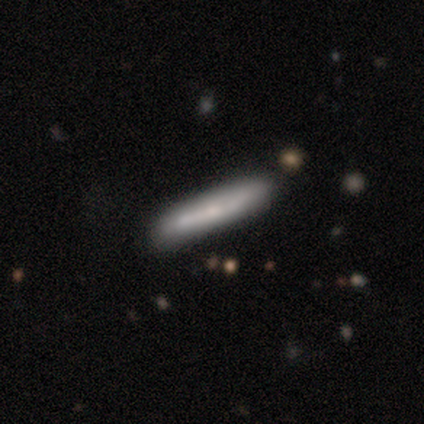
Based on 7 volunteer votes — Smooth or featured?
  - smooth: 57% *
  - featured or disk: 43%
  - star or artifact: 0%
How rounded?
  - cigar-shaped: 75% *
  - in between: 25%
  - round: 0%
Merging?
  - none: 100% *
  - minor disturbance: 0%
  - major disturbance: 0%
  - merger: 0%